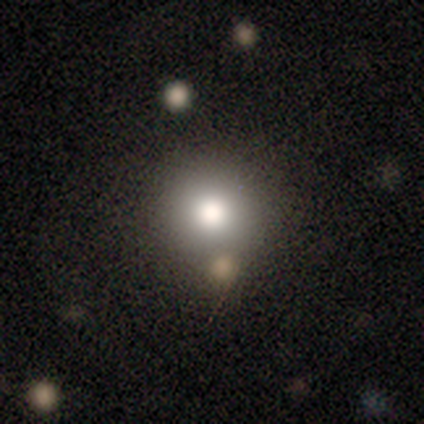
This appears to be a smooth galaxy with no disk features (69%) that is round (91%). Merging: none (77%).